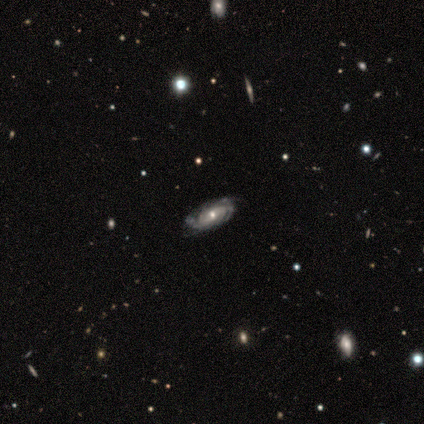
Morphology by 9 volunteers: Volunteers were most divided on "bar": weak: 43%, strong: 29%, no: 29%. More confident: edge-on disk — no (100%); spiral arms — yes (100%); spiral winding — tight (86%); bulge size — moderate (86%); smooth or featured — featured or disk (78%); merging — none (71%); spiral arm count — can't tell (71%).